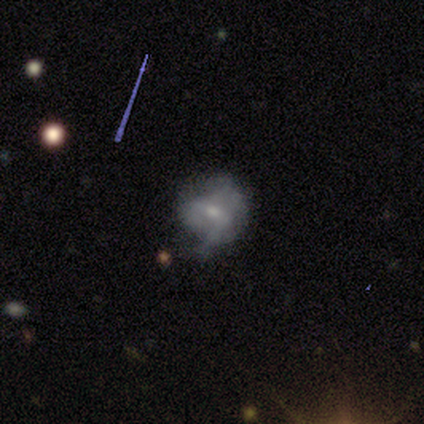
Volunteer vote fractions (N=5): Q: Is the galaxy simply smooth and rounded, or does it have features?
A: featured or disk — 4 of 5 (80%).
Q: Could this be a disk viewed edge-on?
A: no — 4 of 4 (100%).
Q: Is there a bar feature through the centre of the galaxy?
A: weak — 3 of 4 (75%).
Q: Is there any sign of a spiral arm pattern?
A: no — 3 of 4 (75%).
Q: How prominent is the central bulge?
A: moderate — 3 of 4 (75%).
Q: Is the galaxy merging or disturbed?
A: major disturbance — 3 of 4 (75%).